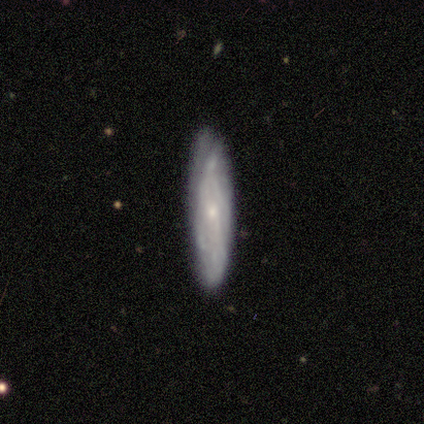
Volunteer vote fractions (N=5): Morphology: type=featured or disk (80%); edge-on=no (75%); bar=weak (100%); spiral arms=yes (100%); winding=medium (67%); arm count=can't tell (100%); bulge=moderate (67%); merging=minor disturbance (60%).